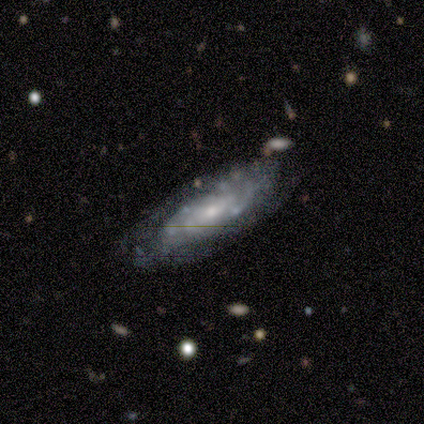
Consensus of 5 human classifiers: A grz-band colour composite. It shows a featured or disk galaxy (80%) with no bar (100%), tight (100%) spiral arms (67%) and a moderate central bulge (100%). Merging: none (80%).